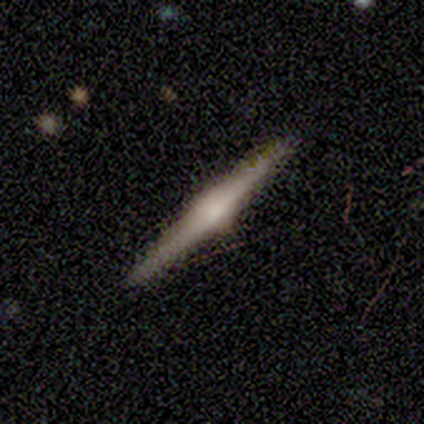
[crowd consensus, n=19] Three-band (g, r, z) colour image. It shows a featured or disk galaxy (84%) viewed edge-on (100%) with a rounded central bulge (88%). Merging: none (95%).